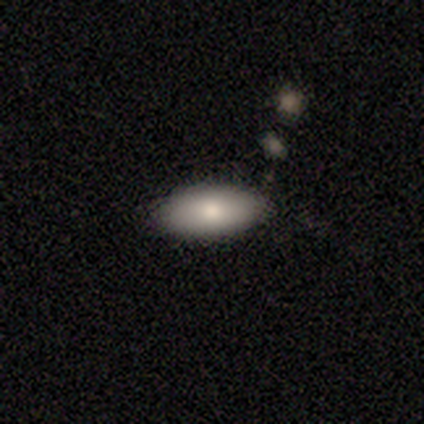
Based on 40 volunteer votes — Volunteers were most divided on "merging": none: 79%, minor disturbance: 13%, merger: 8%, major disturbance: 0%. More confident: how rounded — in between (88%); smooth or featured — smooth (85%).